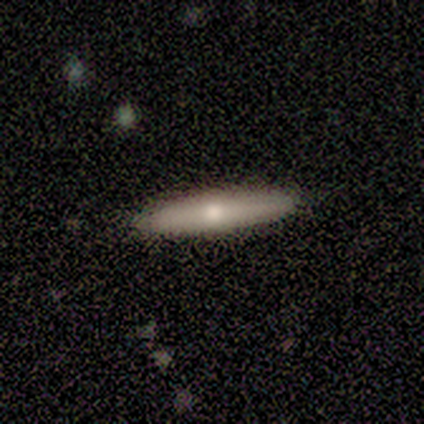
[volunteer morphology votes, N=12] featured or disk 58%, smooth 42%, star or artifact 0%. Down the decision tree: edge-on disk — yes (86%); edge-on bulge — rounded (100%); merging — none (92%).